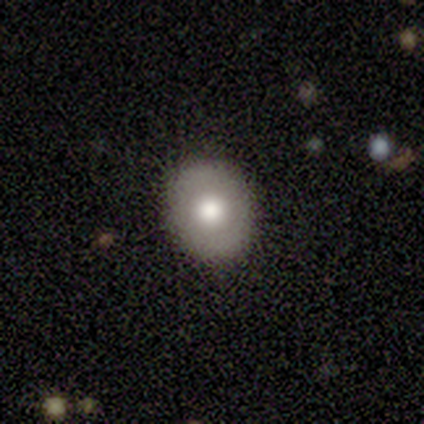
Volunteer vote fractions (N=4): smooth_or_featured: smooth (p=1.00)
how_rounded: round (p=0.50) [tied with: in between p=0.50]
merging: none (p=1.00)